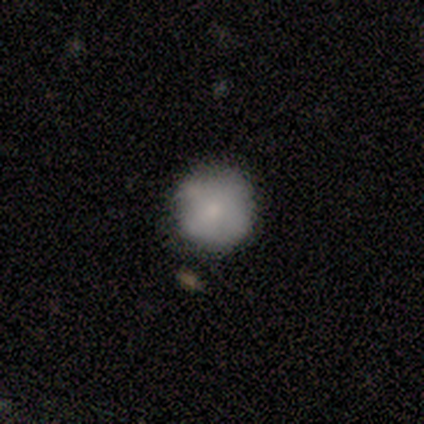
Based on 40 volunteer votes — smooth_or_featured: smooth (p=0.75) [alt: featured or disk p=0.20]
how_rounded: round (p=1.00)
merging: none (p=0.76) [alt: minor disturbance p=0.24]